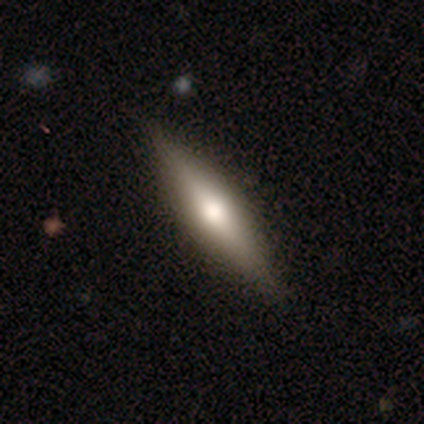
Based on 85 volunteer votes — Smooth or featured: featured or disk — 56% (smooth — 38%)
Edge-on disk: yes — 98% (no — 2%)
Edge-on bulge: rounded — 94% (none — 4%)
Merging: none — 86% (minor disturbance — 9%)